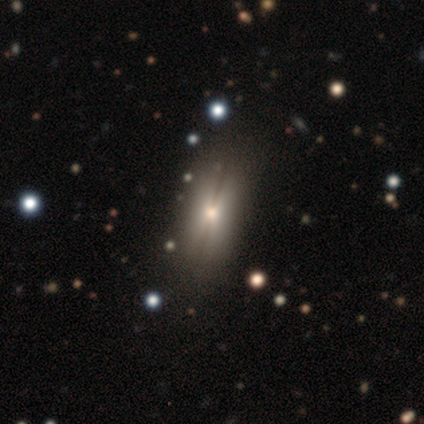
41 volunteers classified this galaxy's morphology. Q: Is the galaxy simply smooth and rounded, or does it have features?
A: smooth — 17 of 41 (41%, tied with featured or disk).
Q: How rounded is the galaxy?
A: in between — 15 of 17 (88%).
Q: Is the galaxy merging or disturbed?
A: none — 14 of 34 (41%).